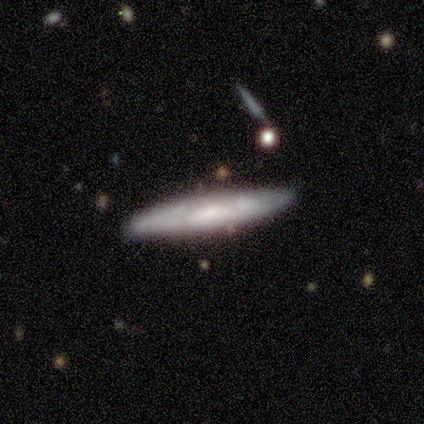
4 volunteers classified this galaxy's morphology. Smooth or featured: featured or disk — 75% (smooth — 25%)
Edge-on disk: yes — 67% (no — 33%)
Edge-on bulge: none — 50% (tied with rounded — 50%)
Merging: none — 100%